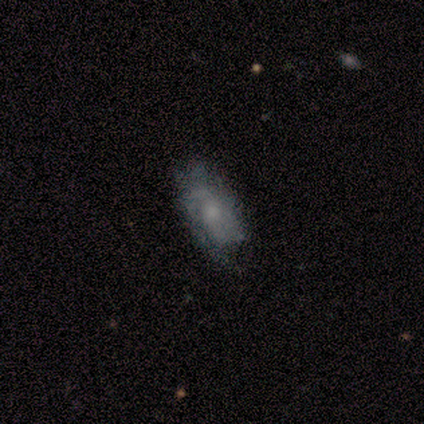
Smooth or featured? 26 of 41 (63%) said featured or disk. Edge-on disk? 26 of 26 (100%) said no. Bar? 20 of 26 (77%) said no. Spiral arms? 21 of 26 (81%) said yes. Spiral winding? 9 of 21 (43%) said tight. Spiral arm count? 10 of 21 (48%) said can't tell. Bulge size? 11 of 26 (42%) said small. Merging? 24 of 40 (60%) said none.